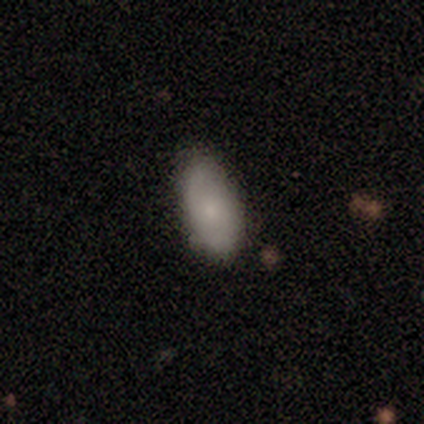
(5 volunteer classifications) A featured or disk galaxy (40%, tied with star or artifact) with no bar (100%), 2 (50%, tied with can't tell) medium (100%) spiral arms (100%) and a small central bulge (50%, tied with none). Merging: minor disturbance (67%).